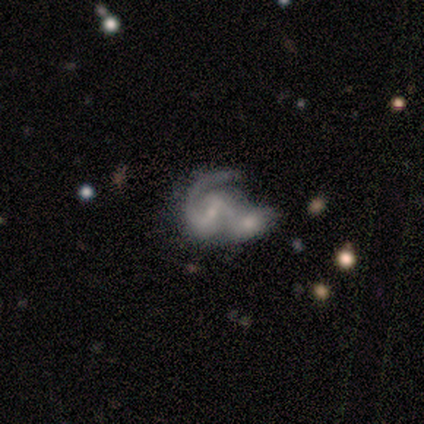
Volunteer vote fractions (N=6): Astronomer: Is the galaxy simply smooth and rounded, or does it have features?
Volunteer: featured or disk — 100%.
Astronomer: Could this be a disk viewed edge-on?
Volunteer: no — 83%.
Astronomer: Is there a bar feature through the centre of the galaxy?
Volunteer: strong — 40%, tied with no at 40%.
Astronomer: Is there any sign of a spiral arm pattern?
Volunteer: yes — 100%.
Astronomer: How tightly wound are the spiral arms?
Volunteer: tight — 40%, tied with loose at 40%.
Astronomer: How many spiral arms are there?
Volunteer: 2 — 80%.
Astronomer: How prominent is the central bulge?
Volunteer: none — 60%.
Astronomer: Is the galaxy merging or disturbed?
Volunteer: merger — 50% (runner-up: major disturbance, 33%).